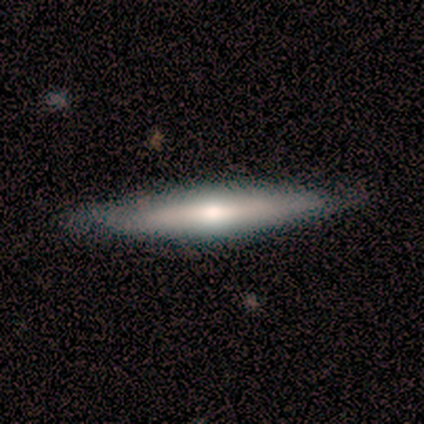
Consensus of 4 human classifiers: Morphology: type=smooth (50%, tied with featured or disk); roundness=in between (50%, tied with cigar-shaped); merging=none (100%).